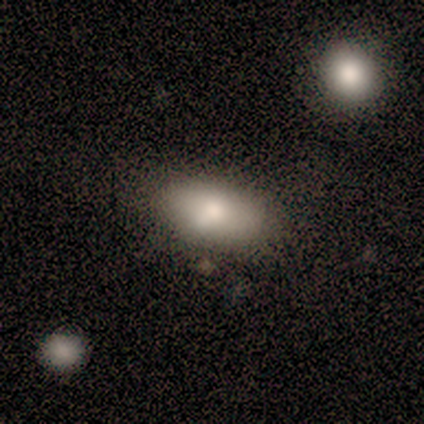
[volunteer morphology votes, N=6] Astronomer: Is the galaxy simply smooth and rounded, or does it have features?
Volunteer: smooth — 67%.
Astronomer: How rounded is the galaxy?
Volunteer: in between — 100%.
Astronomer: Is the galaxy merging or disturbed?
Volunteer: none — 40%, tied with merger at 40%.